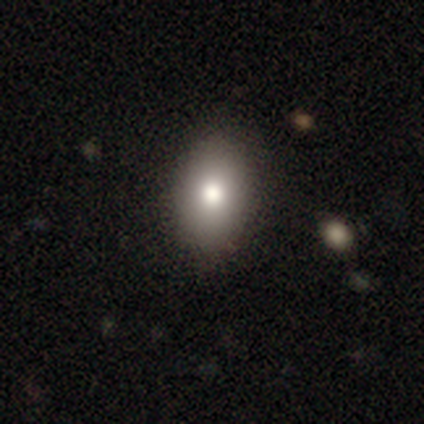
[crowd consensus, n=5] Smooth or featured? smooth (40%, tied with featured or disk)
How rounded? in between (50%, tied with cigar-shaped)
Merging? none (100%)